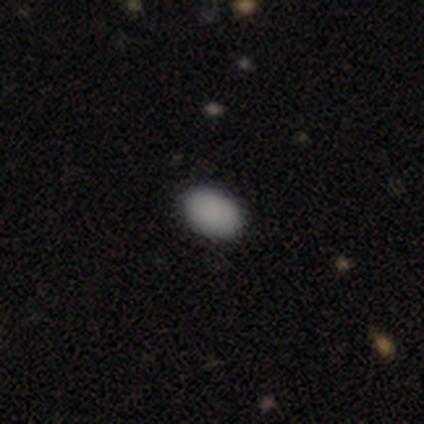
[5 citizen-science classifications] smooth-or-featured: smooth: 80% | star or artifact: 20% | featured or disk: 0%
  how-rounded: in between: 75% | round: 25% | cigar-shaped: 0%
  merging: none: 100% | minor disturbance: 0% | major disturbance: 0% | merger: 0%